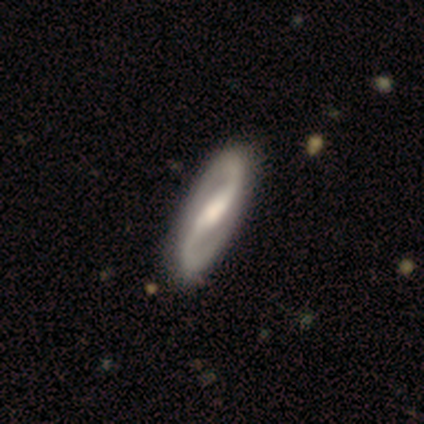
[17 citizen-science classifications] Smooth or featured? featured or disk (88%)
Edge-on disk? no (100%)
Bar? strong (53%)
Spiral arms? yes (100%)
Spiral winding? medium (60%)
Spiral arm count? 2 (100%)
Bulge size? moderate (60%)
Merging? none (76%)